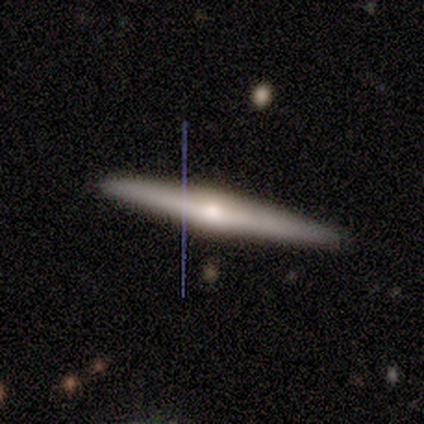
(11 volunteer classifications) This is clearly a featured or disk galaxy (82%). It is clearly viewed edge-on (100%). Edge-on bulge: clearly rounded (89%). Merging: clearly none (100%).